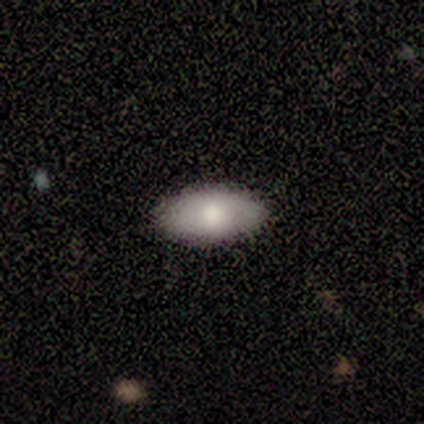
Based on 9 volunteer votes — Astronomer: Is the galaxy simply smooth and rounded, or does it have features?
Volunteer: smooth — 78%.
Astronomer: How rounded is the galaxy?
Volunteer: in between — 100%.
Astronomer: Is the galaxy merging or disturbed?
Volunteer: none — 78%.